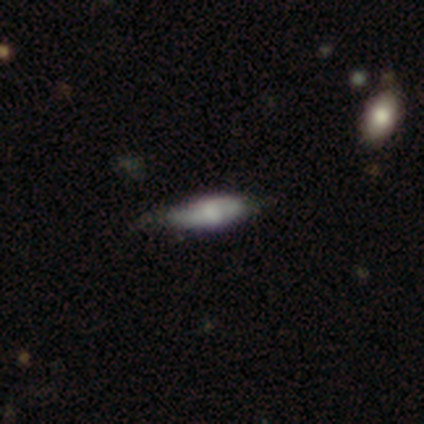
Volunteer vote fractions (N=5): Smooth or featured: smooth — 80% (featured or disk — 20%)
How rounded: cigar-shaped — 75% (in between — 25%)
Merging: none — 80% (minor disturbance — 20%)